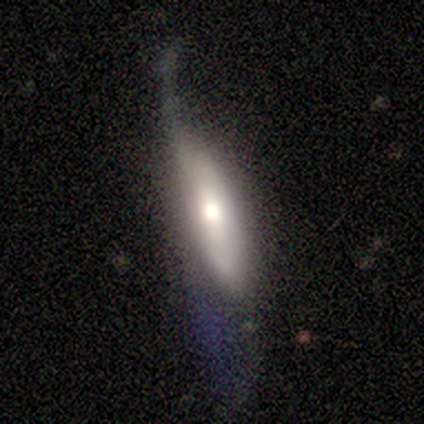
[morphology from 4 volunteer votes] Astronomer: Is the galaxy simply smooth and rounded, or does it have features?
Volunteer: featured or disk — 75%.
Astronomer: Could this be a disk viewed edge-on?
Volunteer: no — 67%.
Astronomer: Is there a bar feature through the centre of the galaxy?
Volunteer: no — 100%.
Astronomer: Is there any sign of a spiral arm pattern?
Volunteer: yes — 50%, tied with no at 50%.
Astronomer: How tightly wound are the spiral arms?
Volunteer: loose — 100%.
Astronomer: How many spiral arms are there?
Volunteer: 1 — 100%.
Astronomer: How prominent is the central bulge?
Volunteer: moderate — 100%.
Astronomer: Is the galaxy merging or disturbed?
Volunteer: none — 25%, tied with minor disturbance, major disturbance and merger at 25%.